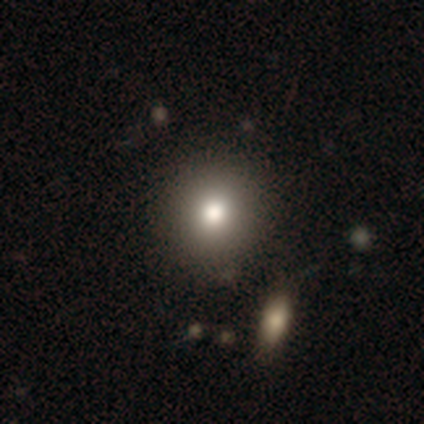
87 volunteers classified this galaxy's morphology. A smooth galaxy with no disk features (70%) that is round (92%). Merging: none (93%).